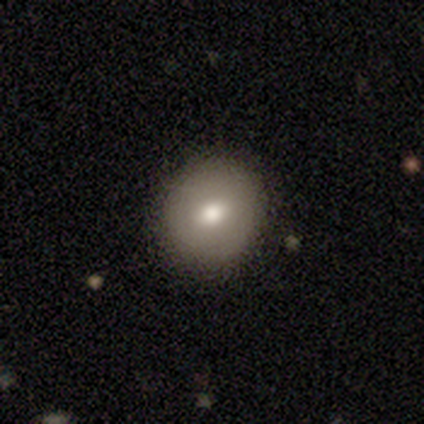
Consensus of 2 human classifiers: smooth_or_featured: smooth (p=0.50) [tied with: featured or disk p=0.50]
how_rounded: round (p=1.00)
merging: none (p=1.00)